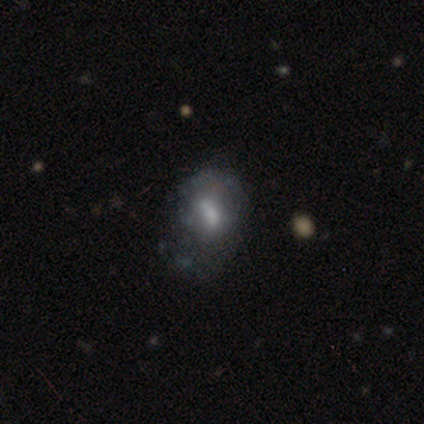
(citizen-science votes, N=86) Smooth or featured?
  - smooth: 40% * (tied)
  - featured or disk: 40% * (tied)
  - star or artifact: 21%
How rounded?
  - in between: 71% *
  - round: 24%
  - cigar-shaped: 6%
Merging?
  - minor disturbance: 41% *
  - none: 26%
  - major disturbance: 21%
  - merger: 12%